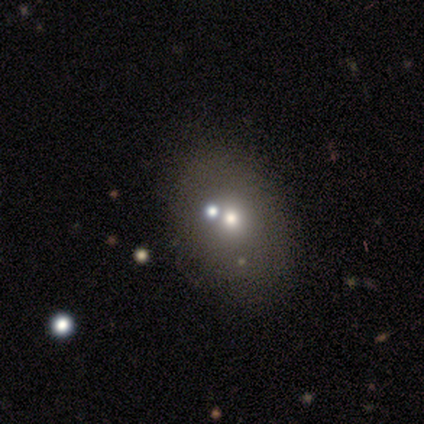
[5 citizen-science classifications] Smooth or featured?
  - smooth: 40% * (tied)
  - star or artifact: 40% * (tied)
  - featured or disk: 20%
How rounded?
  - round: 50% * (tied)
  - in between: 50% * (tied)
  - cigar-shaped: 0%
Merging?
  - none: 33% * (tied)
  - minor disturbance: 33% * (tied)
  - merger: 33% * (tied)
  - major disturbance: 0%